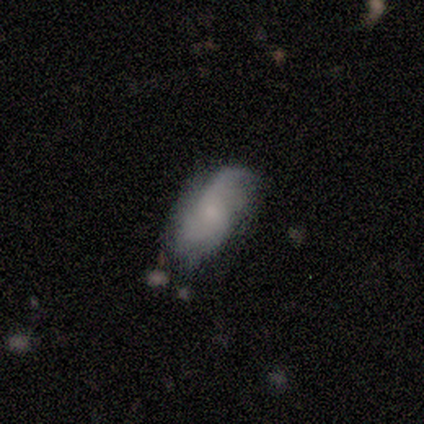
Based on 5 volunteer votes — Smooth or featured? smooth (80%)
How rounded? in between (100%)
Merging? none (60%)